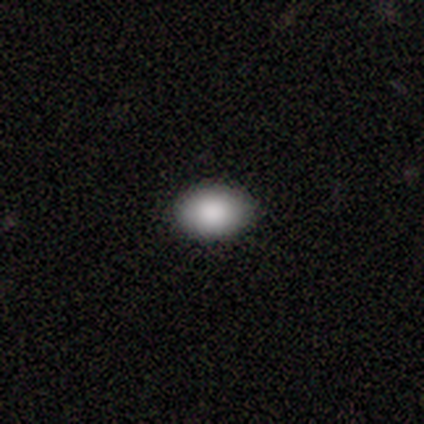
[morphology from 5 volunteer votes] smooth_or_featured: smooth (p=1.00)
how_rounded: in between (p=1.00)
merging: none (p=1.00)